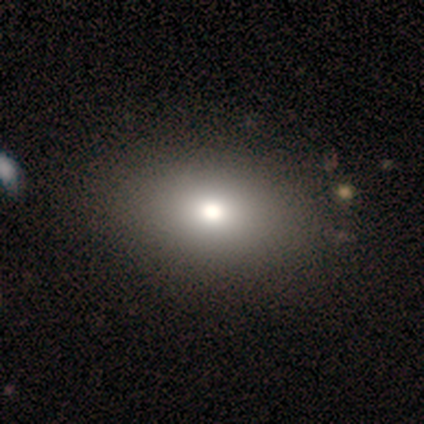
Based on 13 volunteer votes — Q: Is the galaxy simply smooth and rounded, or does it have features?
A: smooth — 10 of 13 (77%).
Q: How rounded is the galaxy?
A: in between — 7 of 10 (70%).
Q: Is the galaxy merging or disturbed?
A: none — 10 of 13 (77%).